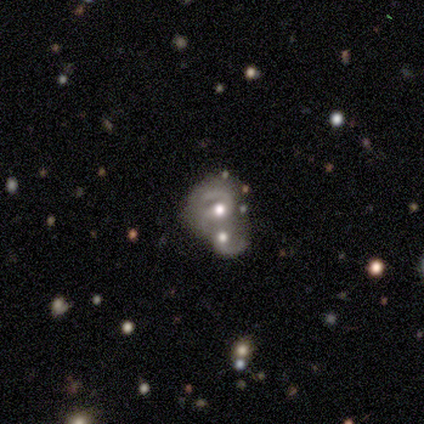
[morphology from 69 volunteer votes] Smooth or featured: featured or disk — 84% (star or artifact — 10%)
Edge-on disk: no — 100%
Bar: no — 66% (weak — 31%)
Spiral arms: yes — 81% (no — 19%)
Spiral winding: tight — 40% (tied with medium — 40%)
Spiral arm count: 2 — 62% (can't tell — 21%)
Bulge size: moderate — 71% (large — 16%)
Merging: merger — 89% (none — 5%)